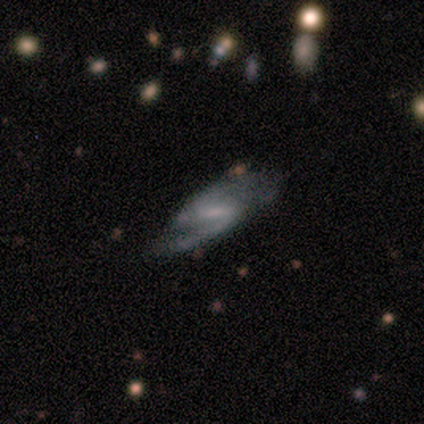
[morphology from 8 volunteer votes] A featured or disk galaxy (75%) with a strong bar (67%), 2 (80%) medium (60%) spiral arms (83%) and no central bulge (83%).

Vote fractions:
- Smooth or featured? featured or disk: 75% / smooth: 12% / star or artifact: 12%
- Edge-on disk? no: 100% / yes: 0%
- Bar? strong: 67% / weak: 17% / no: 17%
- Spiral arms? yes: 83% / no: 17%
- Spiral winding? medium: 60% / loose: 40% / tight: 0%
- Spiral arm count? 2: 80% / 1: 20% / 3: 0% / 4: 0% / more than 4: 0% / can't tell: 0%
- Bulge size? none: 83% / small: 17% / dominant: 0% / large: 0% / moderate: 0%
- Merging? none: 57% / major disturbance: 29% / minor disturbance: 14% / merger: 0%